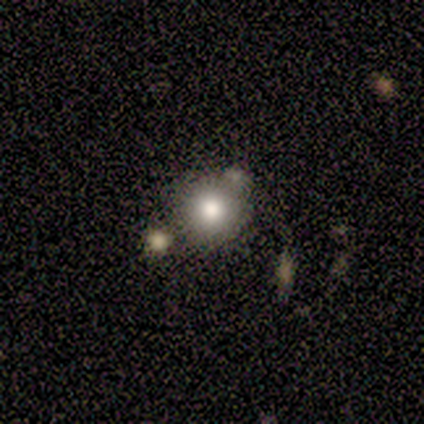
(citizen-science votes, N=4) Morphology: type=smooth (50%); roundness=round (100%); merging=none (33%, tied with minor disturbance and merger).